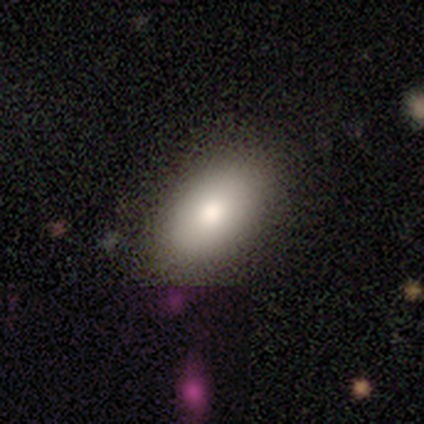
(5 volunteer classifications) Morphology: type=smooth (60%); roundness=in between (100%); merging=none (100%).